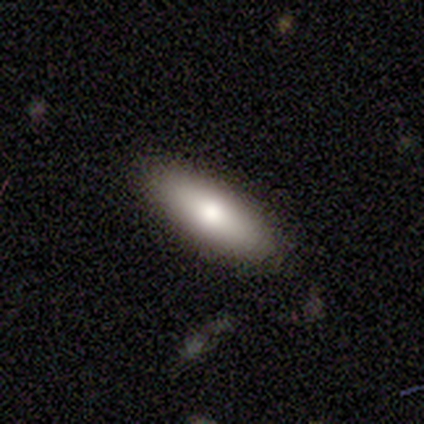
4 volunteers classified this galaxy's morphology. smooth_or_featured: smooth (p=1.00)
how_rounded: cigar-shaped (p=1.00)
merging: none (p=1.00)